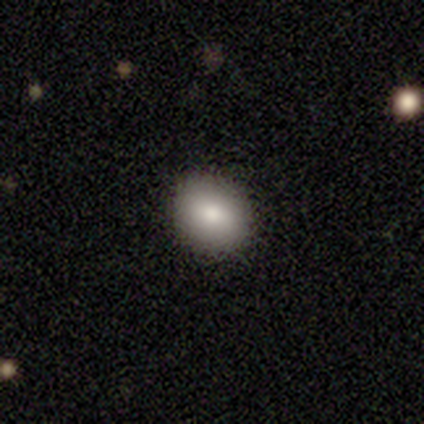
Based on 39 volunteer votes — A smooth galaxy with no disk features (77%) that is round (77%). Merging: none (85%).